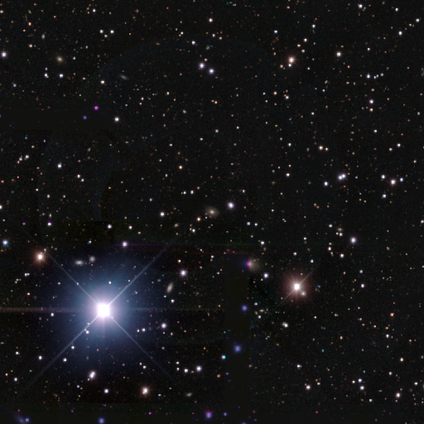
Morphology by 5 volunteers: Smooth or featured? 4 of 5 (80%) said star or artifact.